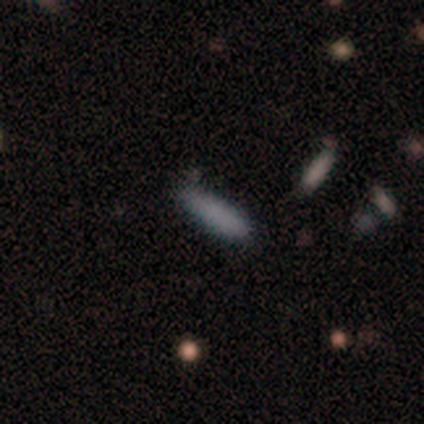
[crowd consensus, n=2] smooth_or_featured: smooth (p=1.00)
how_rounded: cigar-shaped (p=1.00)
merging: none (p=1.00)